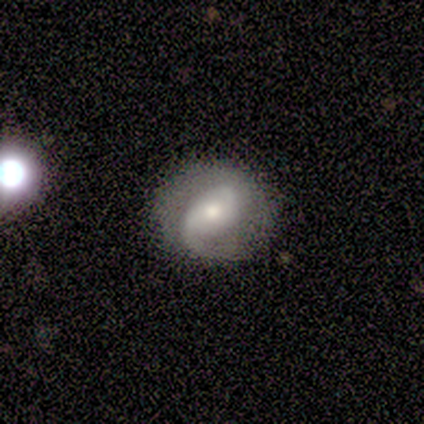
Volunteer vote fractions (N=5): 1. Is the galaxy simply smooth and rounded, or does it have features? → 100% featured or disk, 0% smooth, 0% star or artifact.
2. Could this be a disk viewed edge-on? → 100% no, 0% yes.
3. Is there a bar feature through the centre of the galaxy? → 60% no, 20% strong, 20% weak.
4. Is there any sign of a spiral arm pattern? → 100% yes, 0% no.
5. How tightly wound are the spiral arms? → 60% loose, 40% medium, 0% tight.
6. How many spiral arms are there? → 60% 2, 40% 1, 0% 3, 0% 4, 0% more than 4, 0% can't tell.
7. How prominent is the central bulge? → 60% moderate, 40% small, 0% dominant, 0% large, 0% none.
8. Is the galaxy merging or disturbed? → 60% none, 20% minor disturbance, 20% major disturbance, 0% merger.